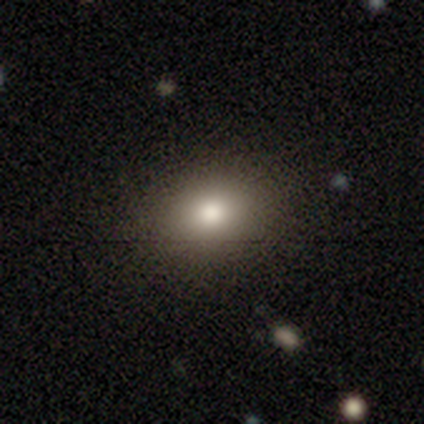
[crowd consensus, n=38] Overall: smooth (82%). How rounded: round (55%; in between 45%). Merging: none (88%).